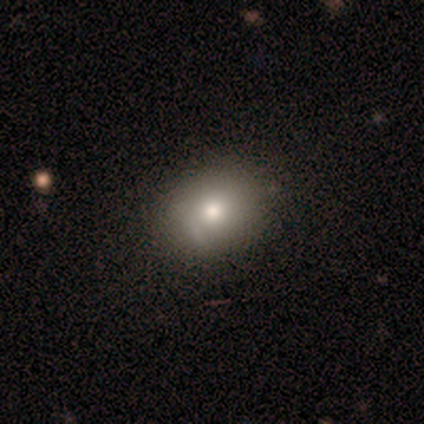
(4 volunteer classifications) This is clearly a smooth galaxy (100%). How rounded: possibly round (50%, tied with in between). Merging: possibly none (50%, tied with minor disturbance).